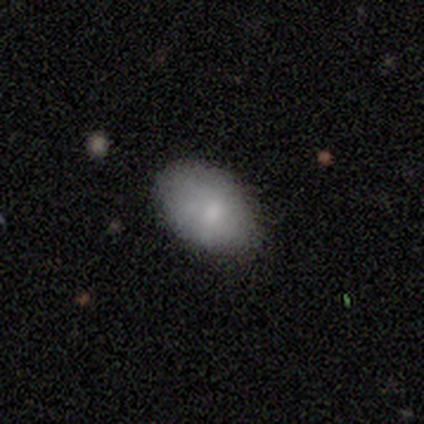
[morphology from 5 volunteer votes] smooth_or_featured: smooth (p=0.80) [alt: featured or disk p=0.20]
how_rounded: in between (p=0.75) [alt: round p=0.25]
merging: none (p=0.60) [alt: minor disturbance p=0.40]